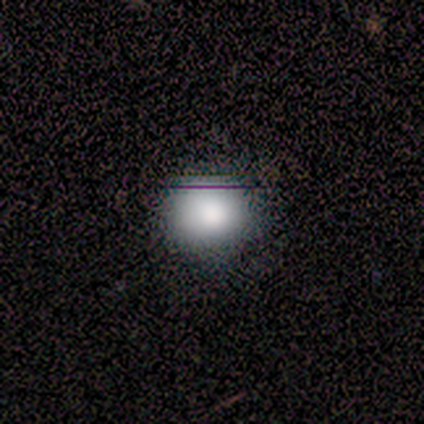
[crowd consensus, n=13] This appears to be a smooth galaxy with no disk features (85%) that is round (82%). Merging: none (67%).